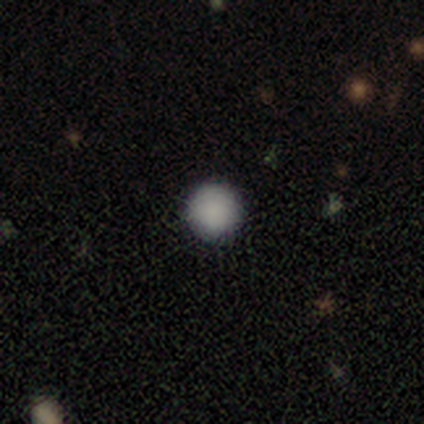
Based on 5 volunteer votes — smooth_or_featured: smooth (p=0.80) [alt: star or artifact p=0.20]
how_rounded: round (p=1.00)
merging: none (p=0.75) [alt: minor disturbance p=0.25]